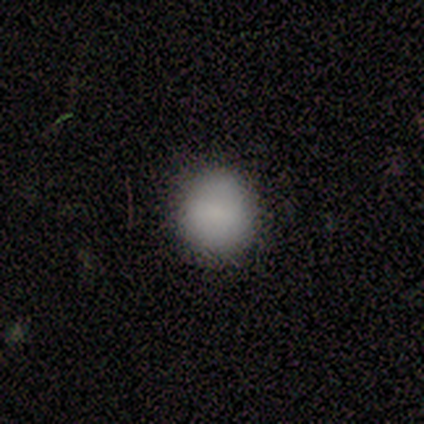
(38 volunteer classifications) Volunteers were most divided on "smooth or featured": smooth: 84%, featured or disk: 11%, star or artifact: 5%. More confident: merging — none (94%); how rounded — round (94%).